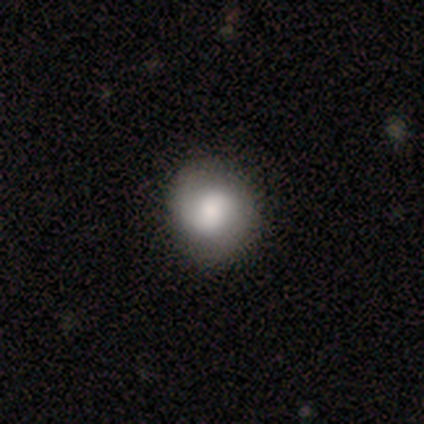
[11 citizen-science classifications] This appears to be a featured or disk galaxy (55%) with no bar (83%), 2 (80%) tight (60%) spiral arms (83%) and a moderate central bulge (50%). Merging: none (64%).